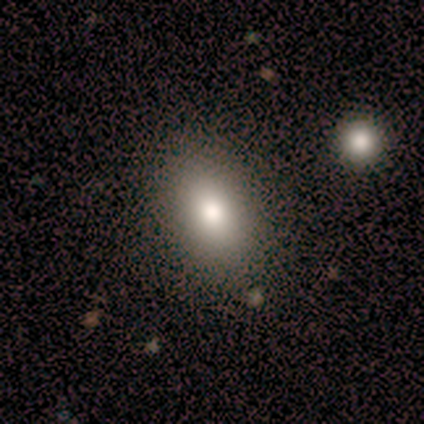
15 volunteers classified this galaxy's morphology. Overall: smooth (87%). How rounded: in between (85%). Merging: none (100%).